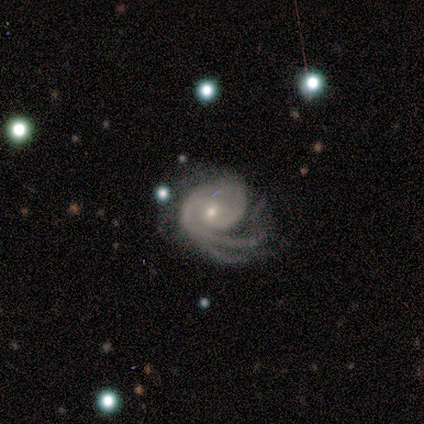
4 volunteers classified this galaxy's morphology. featured or disk 100%, smooth 0%, star or artifact 0%. Down the decision tree: edge-on disk — no (100%); bar — weak (50%, tied with no); spiral arms — yes (100%); spiral arm count — 2 (50%, tied with can't tell); spiral winding — tight (50%, tied with medium); bulge size — small (75%); merging — major disturbance (75%).